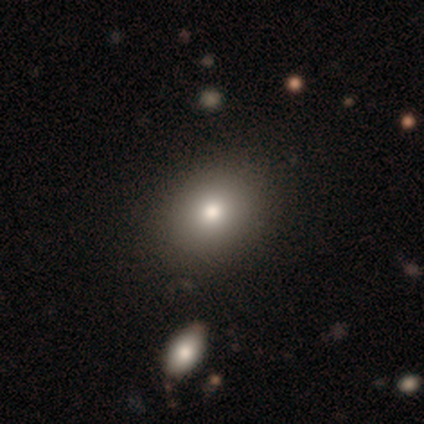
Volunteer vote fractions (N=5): Smooth or featured?
  - featured or disk: 40% * (tied)
  - star or artifact: 40% * (tied)
  - smooth: 20%
Edge-on disk?
  - yes: 50% * (tied)
  - no: 50% * (tied)
Edge-on bulge?
  - rounded: 100% *
  - boxy: 0%
  - none: 0%
Merging?
  - none: 67% *
  - minor disturbance: 33%
  - major disturbance: 0%
  - merger: 0%